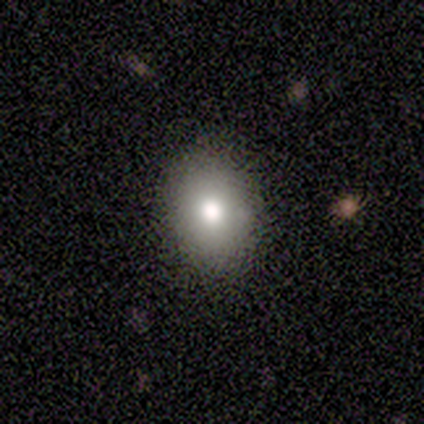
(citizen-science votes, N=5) This is clearly a smooth galaxy (80%). How rounded: clearly in between (100%). Merging: clearly none (100%).